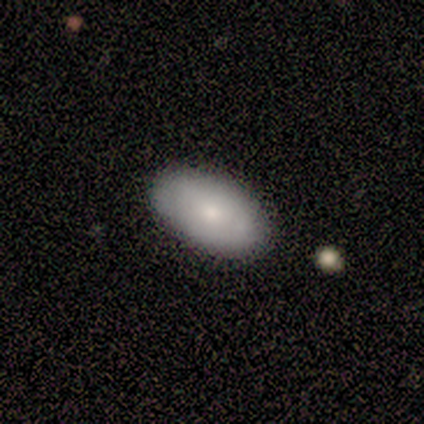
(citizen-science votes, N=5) Volunteers were most divided on "merging": none: 80%, minor disturbance: 20%, major disturbance: 0%, merger: 0%. More confident: smooth or featured — smooth (100%); how rounded — in between (100%).